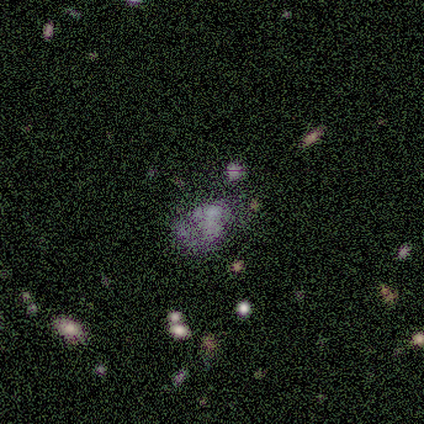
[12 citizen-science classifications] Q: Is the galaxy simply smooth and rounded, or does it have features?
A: featured or disk — 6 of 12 (50%).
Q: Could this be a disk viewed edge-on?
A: no — 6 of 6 (100%).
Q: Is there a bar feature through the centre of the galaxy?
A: no — 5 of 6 (83%).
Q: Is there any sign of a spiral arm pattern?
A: no — 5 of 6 (83%).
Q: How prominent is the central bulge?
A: none — 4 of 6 (67%).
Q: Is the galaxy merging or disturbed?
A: minor disturbance — 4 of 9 (44%).